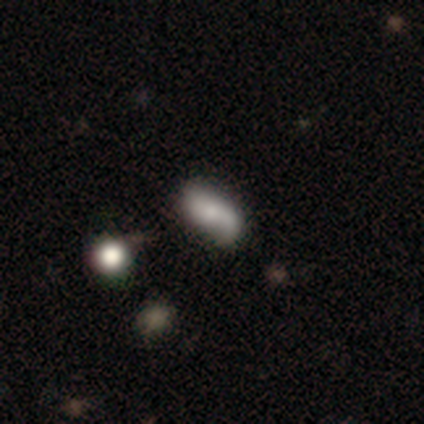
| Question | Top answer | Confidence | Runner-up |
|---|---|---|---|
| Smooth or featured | smooth | 58% | featured or disk (34%) |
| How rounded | in between | 91% | cigar-shaped (9%) |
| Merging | none | 46% | minor disturbance (31%) |